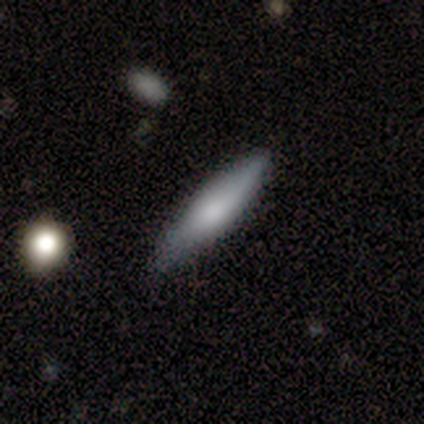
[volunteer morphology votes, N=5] Smooth or featured? featured or disk (60%)
Edge-on disk? yes (100%)
Edge-on bulge? rounded (100%)
Merging? none (80%)